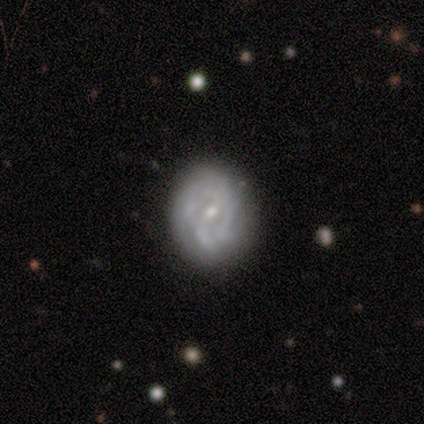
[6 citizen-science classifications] Smooth or featured?
  - featured or disk: 83% *
  - smooth: 17%
  - star or artifact: 0%
Edge-on disk?
  - no: 100% *
  - yes: 0%
Bar?
  - weak: 60% *
  - no: 40%
  - strong: 0%
Spiral arms?
  - yes: 80% *
  - no: 20%
Spiral winding?
  - medium: 50% *
  - tight: 25%
  - loose: 25%
Spiral arm count?
  - can't tell: 75% *
  - 2: 25%
  - 1: 0%
  - 3: 0%
  - 4: 0%
  - more than 4: 0%
Bulge size?
  - small: 80% *
  - moderate: 20%
  - dominant: 0%
  - large: 0%
  - none: 0%
Merging?
  - none: 67% *
  - major disturbance: 33%
  - minor disturbance: 0%
  - merger: 0%